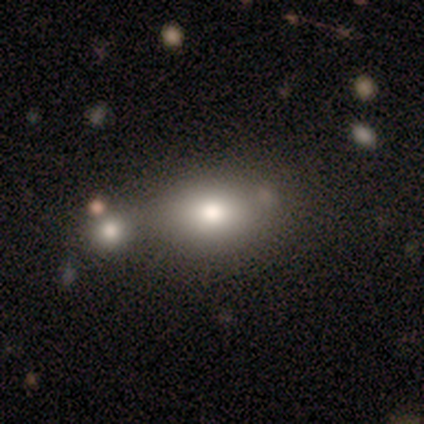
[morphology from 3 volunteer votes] This appears to be a smooth galaxy with no disk features (33%, tied with featured or disk and star or artifact) that is in between round and cigar-shaped (100%). Merging: none (100%).